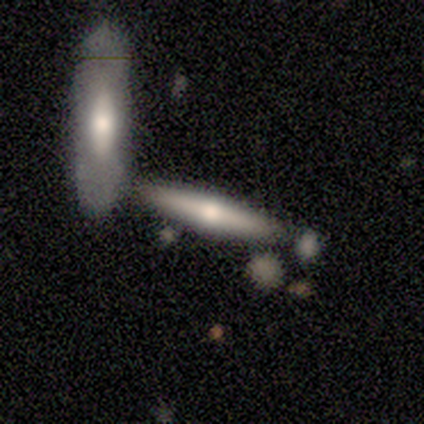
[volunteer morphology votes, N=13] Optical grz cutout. It shows a featured or disk galaxy (54%) viewed edge-on (71%) with a rounded central bulge (100%). Merging: merger (50%).